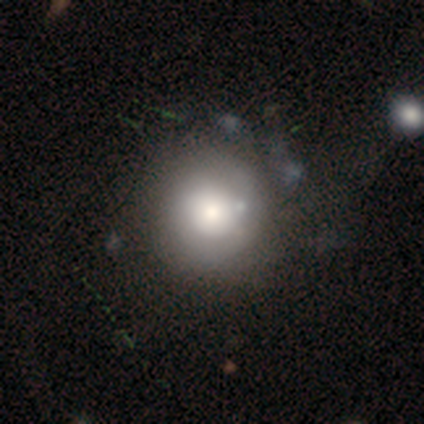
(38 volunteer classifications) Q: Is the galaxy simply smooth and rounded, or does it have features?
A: smooth — 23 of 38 (61%).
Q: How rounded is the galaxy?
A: round — 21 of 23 (91%).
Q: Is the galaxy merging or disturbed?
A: none — 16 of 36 (44%).